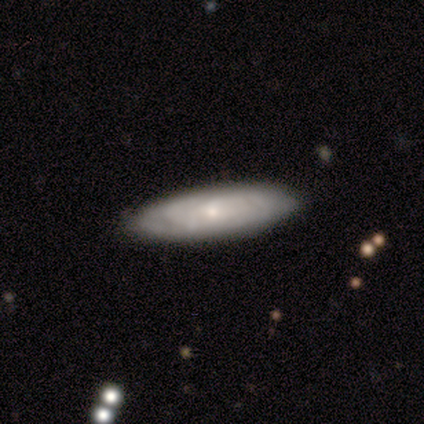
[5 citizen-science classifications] Overall: smooth (60%; featured or disk 40%). How rounded: cigar-shaped (67%; in between 33%). Merging: none (100%).